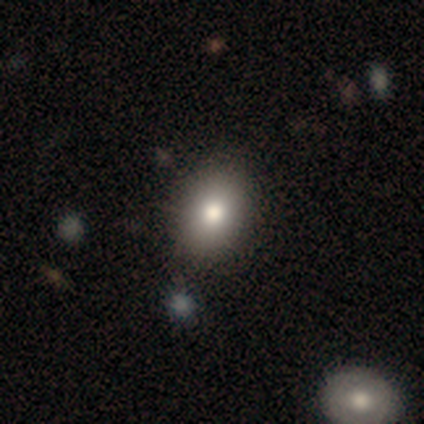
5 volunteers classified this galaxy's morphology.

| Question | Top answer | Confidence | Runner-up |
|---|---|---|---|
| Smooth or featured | smooth | 100% | — |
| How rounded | in between | 80% | round (20%) |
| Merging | none | 100% | — |